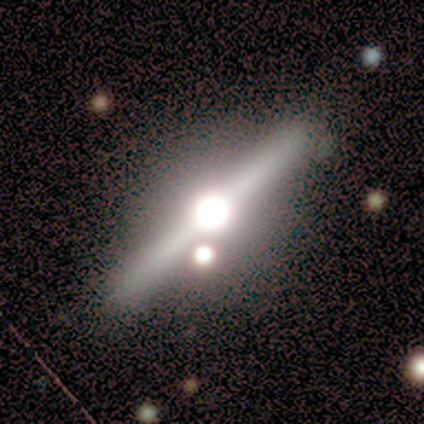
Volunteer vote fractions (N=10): This is clearly a featured or disk galaxy (80%). It is clearly viewed edge-on (100%). Edge-on bulge: clearly rounded (100%). Merging: clearly none (88%).